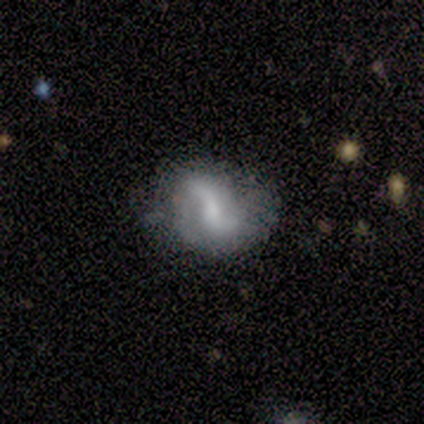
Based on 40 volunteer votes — Q: Smooth or featured?
A: featured or disk (82%); runner-up: smooth (15%)
Q: Edge-on disk?
A: no (100%)
Q: Bar?
A: weak (64%); runner-up: strong (18%)
Q: Spiral arms?
A: yes (91%); runner-up: no (9%)
Q: Spiral winding?
A: loose (57%); runner-up: tight (23%)
Q: Spiral arm count?
A: 2 (93%); runner-up: 1 (7%)
Q: Bulge size?
A: moderate (39%); tied with: small (39%)
Q: Merging?
A: none (62%); runner-up: minor disturbance (31%)